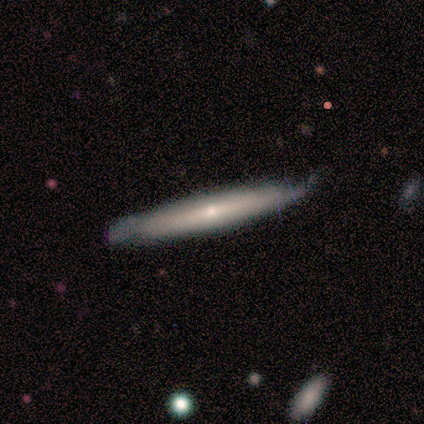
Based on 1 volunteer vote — Smooth or featured? featured or disk (100%)
Edge-on disk? yes (100%)
Edge-on bulge? rounded (100%)
Merging? minor disturbance (100%)